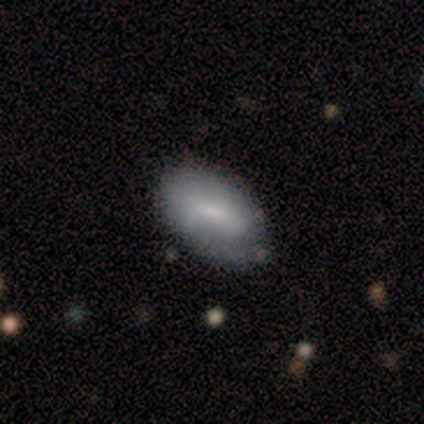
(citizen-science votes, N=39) A smooth galaxy with no disk features (64%) that is in between round and cigar-shaped (100%).

Vote fractions:
- Smooth or featured? smooth: 64% / featured or disk: 31% / star or artifact: 5%
- How rounded? in between: 100% / round: 0% / cigar-shaped: 0%
- Merging? none: 35% / minor disturbance: 19% / major disturbance: 8% / merger: 0%